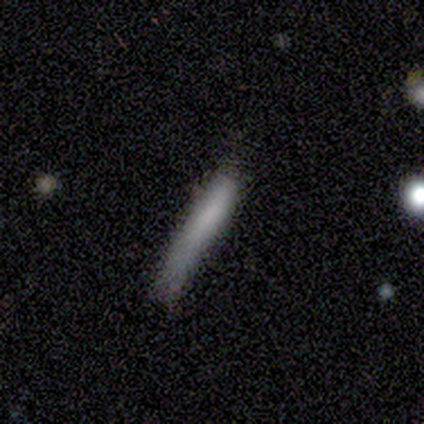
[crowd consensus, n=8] Smooth or featured? 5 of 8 (62%) said smooth. How rounded? 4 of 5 (80%) said cigar-shaped. Merging? 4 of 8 (50%) said none.